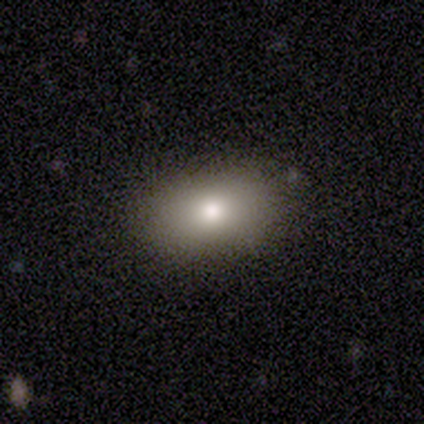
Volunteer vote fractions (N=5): A smooth galaxy with no disk features (80%) that is in between round and cigar-shaped (75%). Merging: none (100%).